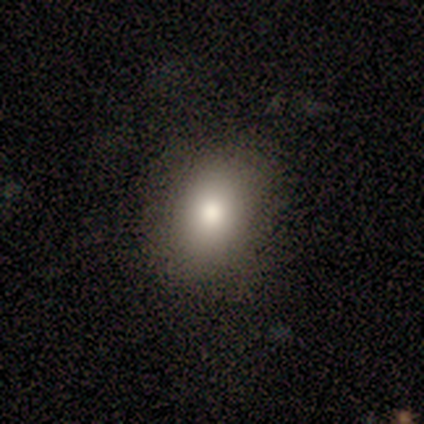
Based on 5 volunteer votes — smooth-or-featured: smooth: 100% | featured or disk: 0% | star or artifact: 0%
  how-rounded: round: 60% | in between: 40% | cigar-shaped: 0%
  merging: none: 100% | minor disturbance: 0% | major disturbance: 0% | merger: 0%